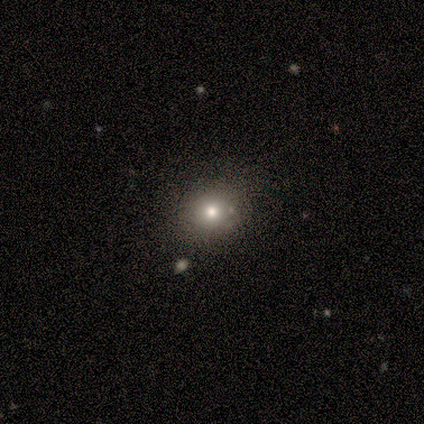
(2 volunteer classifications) Smooth or featured? smooth (100%)
How rounded? round (100%)
Merging? none (100%)